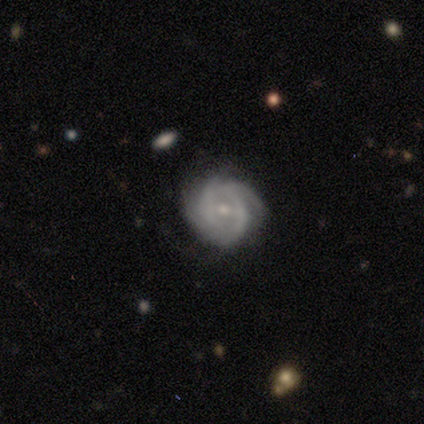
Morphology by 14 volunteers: type=featured or disk (86%); edge-on=no (100%); bar=weak (50%); spiral arms=yes (92%); winding=tight (73%); arm count=2 (45%); bulge=small (67%); merging=none (50%).